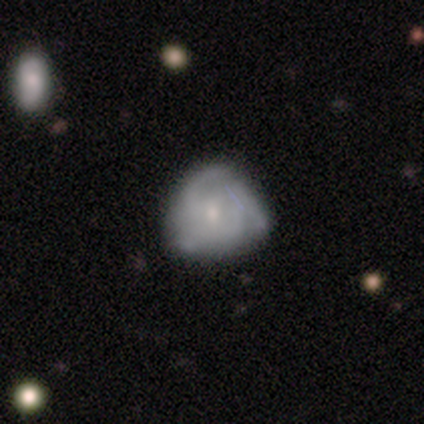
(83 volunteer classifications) smooth-or-featured: featured or disk: 64% | smooth: 28% | star or artifact: 8%
  disk-edge-on: no: 98% | yes: 2%
    bar: no: 75% | weak: 25% | strong: 0%
    has-spiral-arms: yes: 79% | no: 21%
      spiral-winding: medium: 51% | tight: 44% | loose: 5%
      spiral-arm-count: 3: 46% | can't tell: 29% | 2: 17% | 4: 7% | 1: 0% | more than 4: 0%
    bulge-size: small: 77% | moderate: 17% | none: 4% | large: 2% | dominant: 0%
  merging: none: 55% | minor disturbance: 28% | major disturbance: 13% | merger: 4%